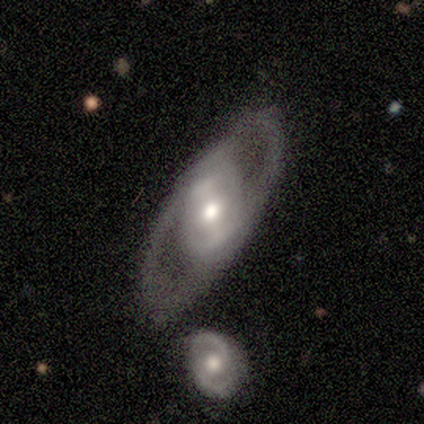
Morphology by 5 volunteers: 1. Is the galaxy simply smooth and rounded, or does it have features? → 60% featured or disk, 40% smooth, 0% star or artifact.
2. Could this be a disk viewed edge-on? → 100% no, 0% yes.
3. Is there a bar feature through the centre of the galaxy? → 33% strong (tied), 33% weak (tied), 33% no (tied).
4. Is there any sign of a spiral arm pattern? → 67% no, 33% yes.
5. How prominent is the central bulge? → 67% moderate, 33% large, 0% dominant, 0% small, 0% none.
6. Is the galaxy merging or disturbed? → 60% none, 20% minor disturbance, 20% major disturbance, 0% merger.